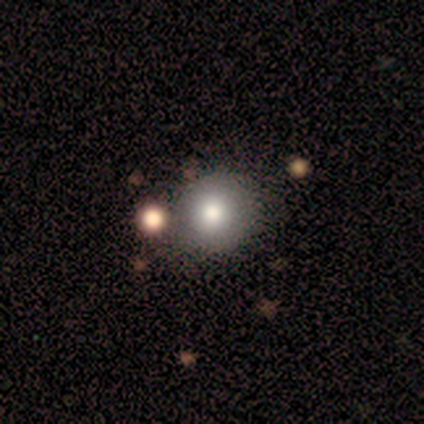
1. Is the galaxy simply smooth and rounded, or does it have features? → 50% smooth (tied), 50% featured or disk (tied), 0% star or artifact.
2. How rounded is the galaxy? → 100% in between, 0% round, 0% cigar-shaped.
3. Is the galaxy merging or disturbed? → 50% none (tied), 50% minor disturbance (tied), 0% major disturbance, 0% merger.